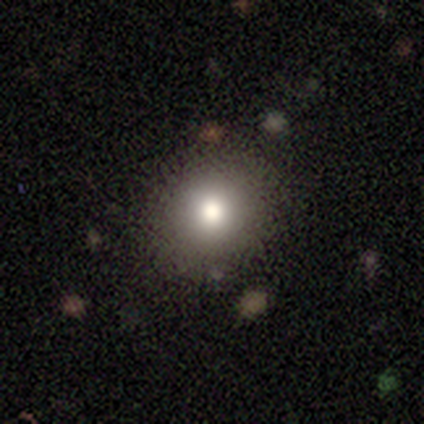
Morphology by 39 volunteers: Q: Smooth or featured?
A: smooth (87%); runner-up: star or artifact (8%)
Q: How rounded?
A: round (97%); runner-up: in between (3%)
Q: Merging?
A: none (81%); runner-up: minor disturbance (14%)